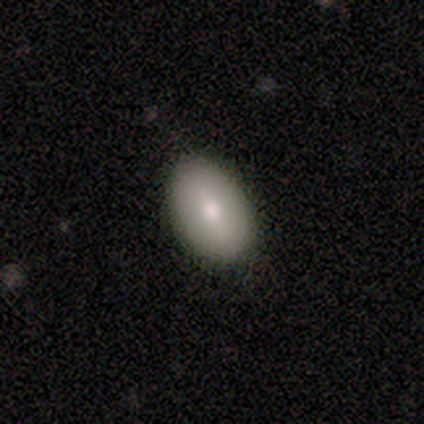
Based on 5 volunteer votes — This is likely a smooth galaxy (60%). How rounded: clearly in between (100%). Merging: clearly none (80%).